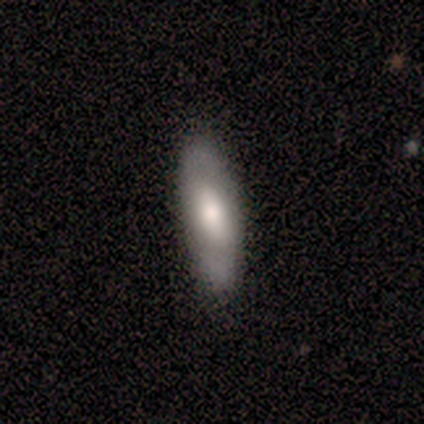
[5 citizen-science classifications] Overall: smooth (60%; featured or disk 40%). How rounded: in between (67%; cigar-shaped 33%). Merging: none (60%; minor disturbance 40%).